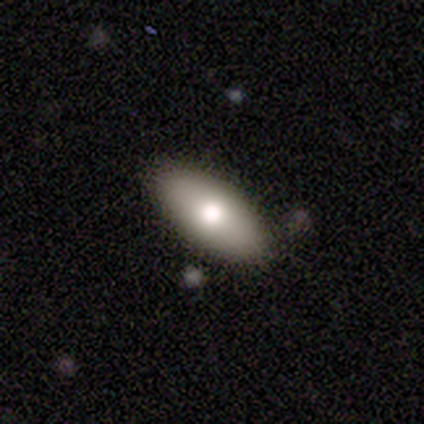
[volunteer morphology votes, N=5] smooth_or_featured: smooth (p=1.00)
how_rounded: in between (p=1.00)
merging: none (p=0.80) [alt: minor disturbance p=0.20]